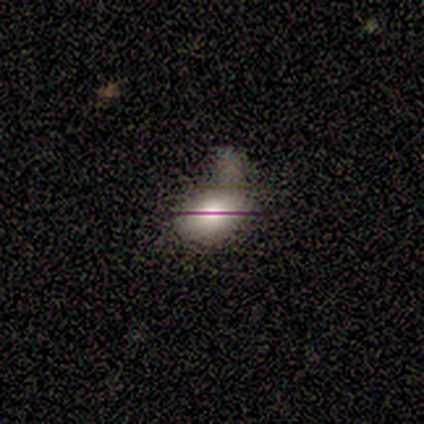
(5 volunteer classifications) Smooth or featured? smooth (40%, tied with star or artifact)
How rounded? round (50%, tied with in between)
Merging? minor disturbance (67%)